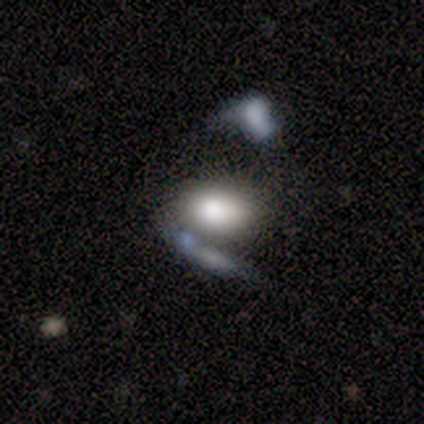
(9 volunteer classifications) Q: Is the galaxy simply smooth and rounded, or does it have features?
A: smooth — 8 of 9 (89%).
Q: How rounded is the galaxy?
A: in between — 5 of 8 (62%).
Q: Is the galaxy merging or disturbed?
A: merger — 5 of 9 (56%).